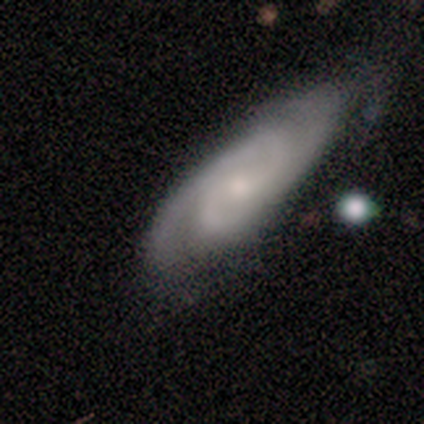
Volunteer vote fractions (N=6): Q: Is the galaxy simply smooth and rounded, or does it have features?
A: featured or disk — 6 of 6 (100%).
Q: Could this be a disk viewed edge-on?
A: no — 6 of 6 (100%).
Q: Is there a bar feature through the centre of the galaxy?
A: no — 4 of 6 (67%).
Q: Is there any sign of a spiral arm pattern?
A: yes — 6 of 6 (100%).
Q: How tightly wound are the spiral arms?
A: tight — 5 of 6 (83%).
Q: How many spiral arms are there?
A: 2 — 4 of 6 (67%).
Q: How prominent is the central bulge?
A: small — 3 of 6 (50%).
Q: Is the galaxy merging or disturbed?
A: none — 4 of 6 (67%).